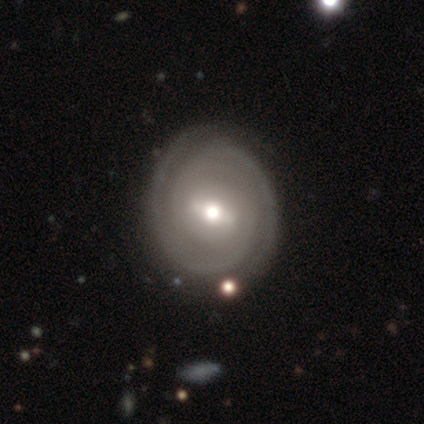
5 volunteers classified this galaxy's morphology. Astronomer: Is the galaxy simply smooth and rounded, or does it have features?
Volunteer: featured or disk — 80%.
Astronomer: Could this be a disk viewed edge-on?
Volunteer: no — 100%.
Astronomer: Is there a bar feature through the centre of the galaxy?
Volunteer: strong — 50%, tied with weak at 50%.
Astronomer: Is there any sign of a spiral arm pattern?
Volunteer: yes — 100%.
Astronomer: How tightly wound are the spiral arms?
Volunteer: tight — 75%.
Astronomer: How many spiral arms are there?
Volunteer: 2 — 100%.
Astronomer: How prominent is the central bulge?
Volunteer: moderate — 75%.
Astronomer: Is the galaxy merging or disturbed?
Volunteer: none — 100%.